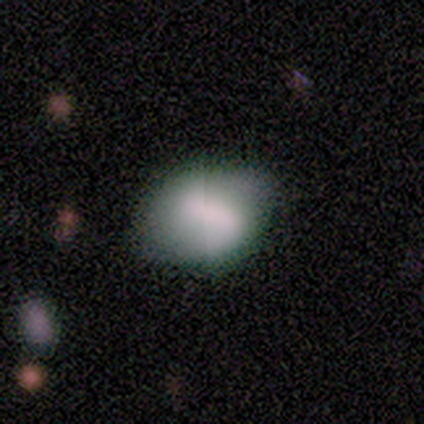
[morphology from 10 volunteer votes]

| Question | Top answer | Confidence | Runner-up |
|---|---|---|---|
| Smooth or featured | smooth | 40% | featured or disk (30%) |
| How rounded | in between | 75% | round (25%) |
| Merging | none | 71% | minor disturbance (29%) |